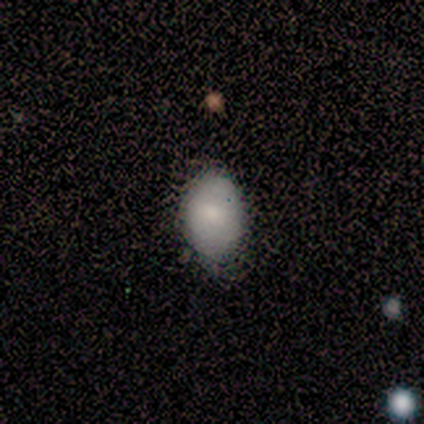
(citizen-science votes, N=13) This is clearly a smooth galaxy (92%). How rounded: clearly in between (83%). Merging: likely none (77%).